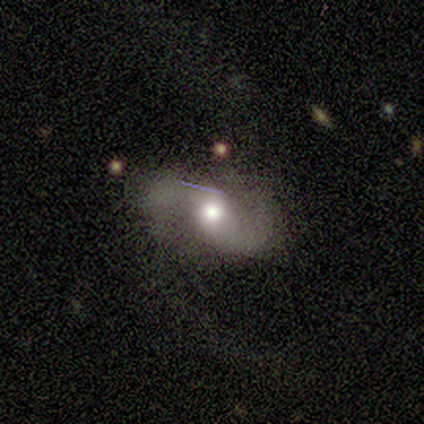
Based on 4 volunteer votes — This appears to be a smooth galaxy with no disk features (50%, tied with featured or disk) that is round (50%, tied with in between). Merging: major disturbance (75%).